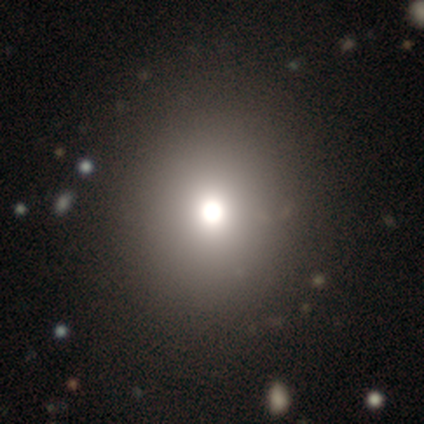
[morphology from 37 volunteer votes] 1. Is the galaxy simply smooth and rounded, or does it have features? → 86% smooth, 14% star or artifact, 0% featured or disk.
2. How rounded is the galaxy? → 81% round, 19% in between, 0% cigar-shaped.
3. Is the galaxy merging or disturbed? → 91% none, 6% minor disturbance, 3% merger, 0% major disturbance.